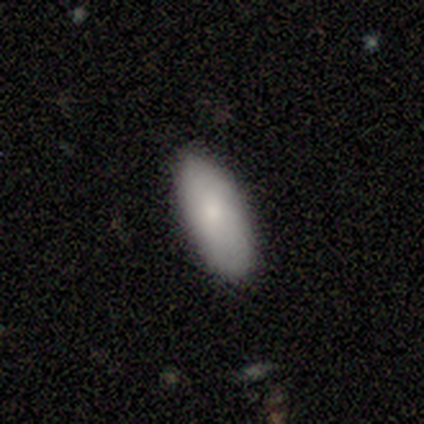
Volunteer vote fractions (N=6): Smooth or featured: smooth — 83% (featured or disk — 17%)
How rounded: in between — 80% (round — 20%)
Merging: none — 83% (merger — 17%)